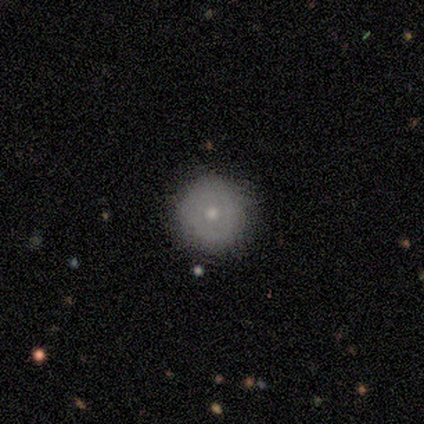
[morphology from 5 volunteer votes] Smooth or featured: smooth — 60% (featured or disk — 40%)
How rounded: round — 100%
Merging: none — 100%